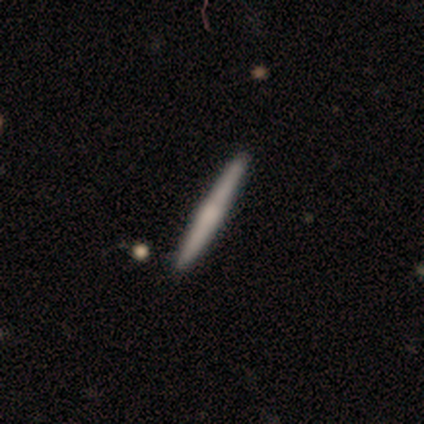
Smooth or featured? 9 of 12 (75%) said smooth. How rounded? 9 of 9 (100%) said cigar-shaped. Merging? 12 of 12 (100%) said none.